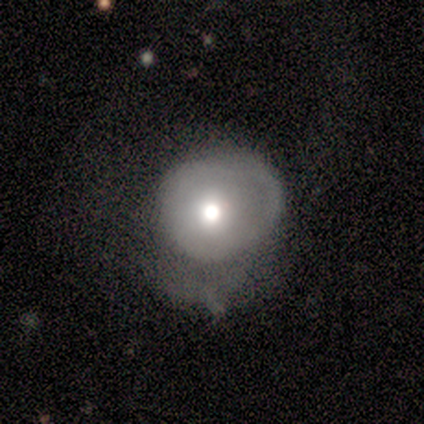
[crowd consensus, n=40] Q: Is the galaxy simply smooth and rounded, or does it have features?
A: featured or disk — 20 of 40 (50%).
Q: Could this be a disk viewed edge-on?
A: no — 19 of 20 (95%).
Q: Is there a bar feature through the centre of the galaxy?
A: no — 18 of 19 (95%).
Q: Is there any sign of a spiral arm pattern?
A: no — 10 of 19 (53%).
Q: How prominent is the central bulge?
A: moderate — 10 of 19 (53%).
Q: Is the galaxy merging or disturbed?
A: major disturbance — 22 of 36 (61%).